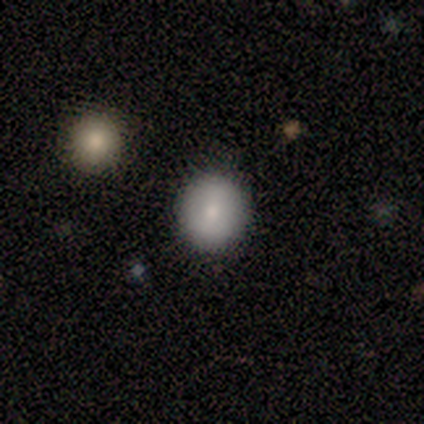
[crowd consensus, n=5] smooth_or_featured: smooth (p=0.80) [alt: featured or disk p=0.20]
how_rounded: round (p=1.00)
merging: none (p=0.80) [alt: merger p=0.20]